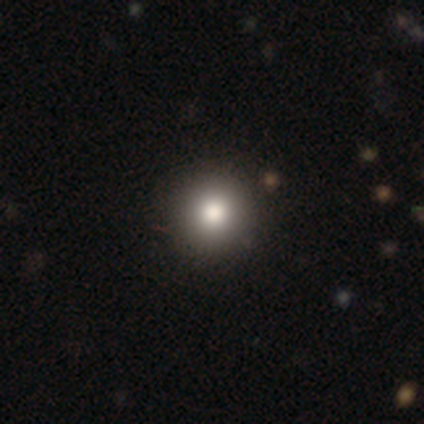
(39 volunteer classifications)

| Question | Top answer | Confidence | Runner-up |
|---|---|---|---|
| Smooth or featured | smooth | 90% | featured or disk (8%) |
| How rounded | round | 100% | — |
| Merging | none | 71% | merger (5%) |